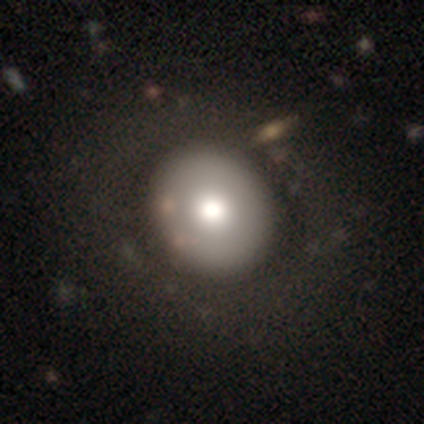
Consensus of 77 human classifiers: This appears to be a smooth galaxy with no disk features (65%) that is round (80%). Merging: none (41%).